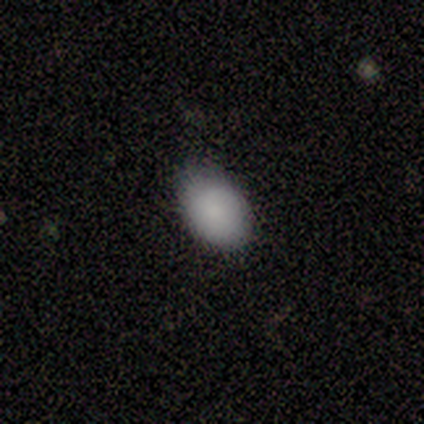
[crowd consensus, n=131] This is clearly a smooth galaxy (94%). How rounded: clearly in between (80%). Merging: likely none (78%).